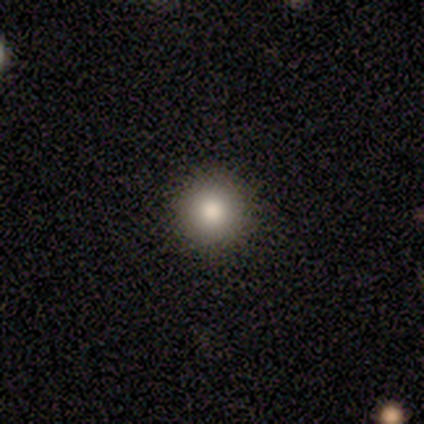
Q: Smooth or featured?
A: smooth (75%); runner-up: featured or disk (25%)
Q: How rounded?
A: round (100%)
Q: Merging?
A: none (100%)